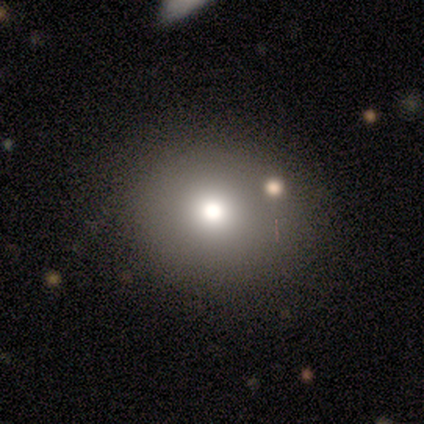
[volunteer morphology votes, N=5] This is marginally a smooth galaxy (40%, tied with star or artifact). How rounded: clearly round (100%). Merging: clearly none (100%).